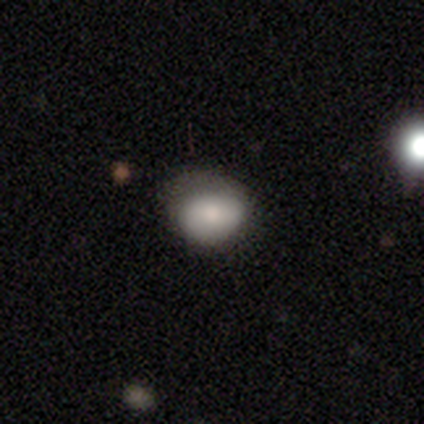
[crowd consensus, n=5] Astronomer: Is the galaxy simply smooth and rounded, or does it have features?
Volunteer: smooth — 100%.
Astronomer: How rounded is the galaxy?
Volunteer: round — 60% (runner-up: in between, 40%).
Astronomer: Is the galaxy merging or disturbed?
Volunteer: minor disturbance — 60%.